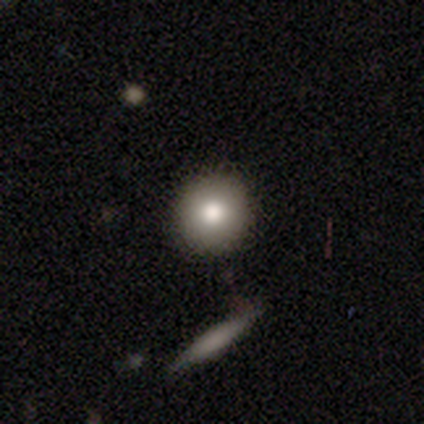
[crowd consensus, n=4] smooth_or_featured: smooth (p=0.75) [alt: featured or disk p=0.25]
how_rounded: round (p=1.00)
merging: none (p=1.00)